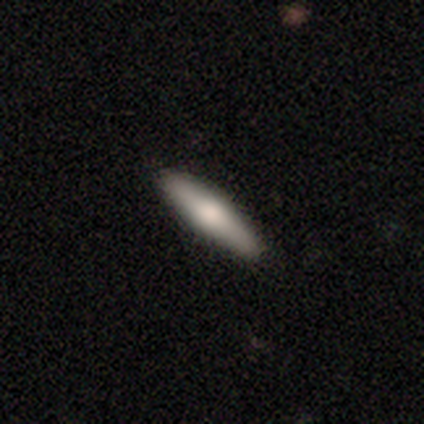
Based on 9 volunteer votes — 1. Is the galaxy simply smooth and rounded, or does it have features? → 56% smooth, 44% featured or disk, 0% star or artifact.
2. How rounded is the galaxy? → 80% cigar-shaped, 20% in between, 0% round.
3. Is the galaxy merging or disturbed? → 100% none, 0% minor disturbance, 0% major disturbance, 0% merger.